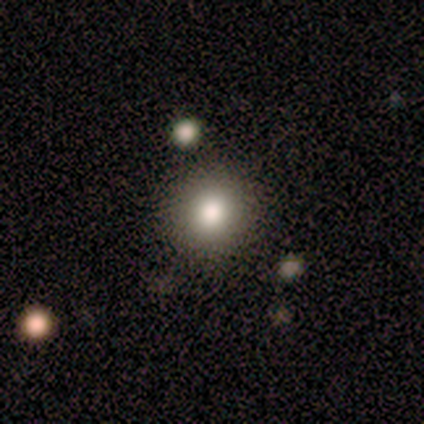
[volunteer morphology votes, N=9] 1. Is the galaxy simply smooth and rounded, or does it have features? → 67% smooth, 22% featured or disk, 11% star or artifact.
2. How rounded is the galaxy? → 83% round, 17% in between, 0% cigar-shaped.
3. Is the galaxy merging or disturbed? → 75% none, 25% minor disturbance, 0% major disturbance, 0% merger.